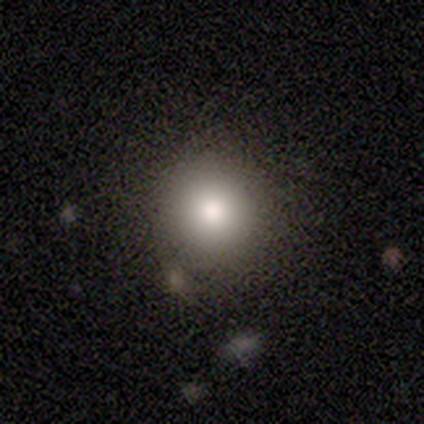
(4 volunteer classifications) smooth-or-featured: smooth: 100% | featured or disk: 0% | star or artifact: 0%
  how-rounded: round: 100% | in between: 0% | cigar-shaped: 0%
  merging: none: 75% | minor disturbance: 25% | major disturbance: 0% | merger: 0%